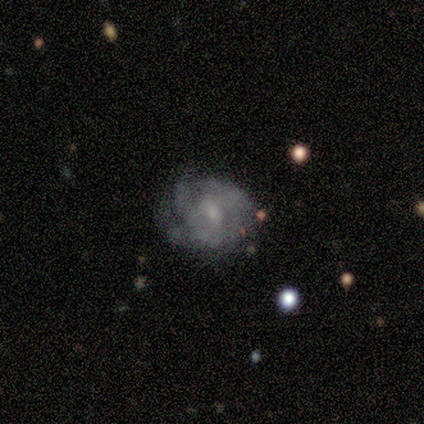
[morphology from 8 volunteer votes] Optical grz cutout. It shows a featured or disk galaxy (88%) with a weak bar (71%), medium (57%) spiral arms (100%) and a small central bulge (86%). Merging: none (75%).